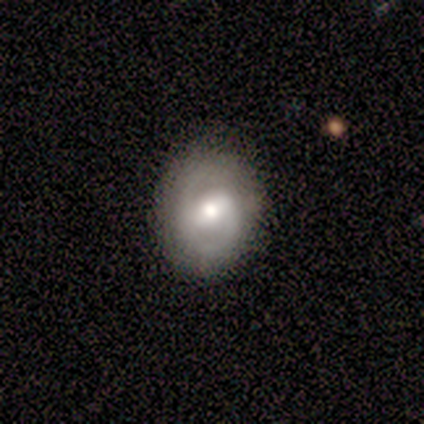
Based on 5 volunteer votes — Overall: featured or disk (100%). Edge-on disk: no (100%). Bar: weak (60%; strong 40%). Spiral arms: yes (60%; no 40%). Spiral arm count: 2 (100%). Spiral winding: tight (33%, tied with medium and loose). Bulge size: moderate (60%; large 40%). Merging: none (100%).